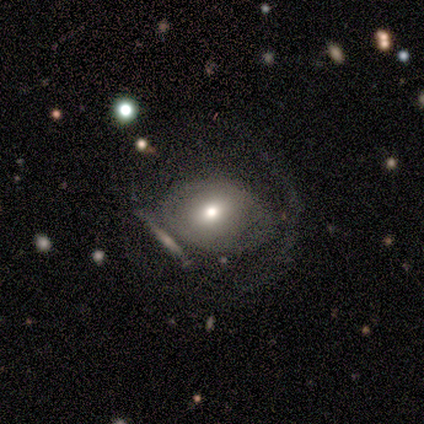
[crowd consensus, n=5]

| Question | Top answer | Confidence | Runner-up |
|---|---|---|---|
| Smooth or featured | smooth | 40% | tied: featured or disk (40%) |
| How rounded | round | 100% | — |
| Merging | none | 25% | tied: minor disturbance (25%), major disturbance (25%), merger (25%) |